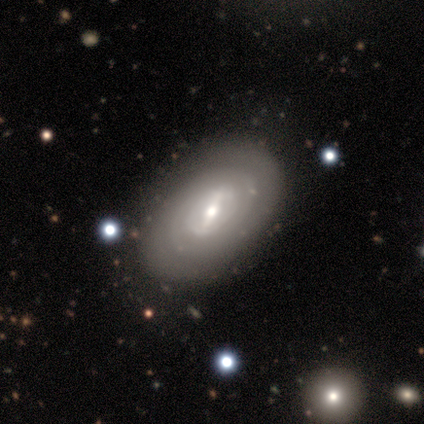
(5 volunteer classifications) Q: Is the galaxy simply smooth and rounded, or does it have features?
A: featured or disk — 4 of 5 (80%).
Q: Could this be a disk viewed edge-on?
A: no — 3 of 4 (75%).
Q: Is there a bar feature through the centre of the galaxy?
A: weak — 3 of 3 (100%).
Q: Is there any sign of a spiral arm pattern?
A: yes — 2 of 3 (67%).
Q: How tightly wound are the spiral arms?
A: tight — 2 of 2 (100%).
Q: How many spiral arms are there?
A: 2 — 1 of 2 (50%, tied with can't tell).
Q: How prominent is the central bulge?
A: large — 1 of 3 (33%, tied with moderate and small).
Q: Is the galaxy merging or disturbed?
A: none — 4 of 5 (80%).